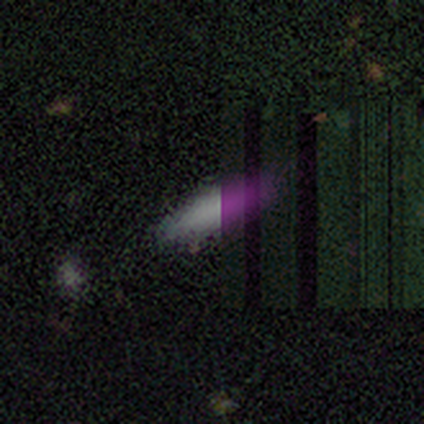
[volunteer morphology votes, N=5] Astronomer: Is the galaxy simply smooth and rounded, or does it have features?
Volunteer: smooth — 80%.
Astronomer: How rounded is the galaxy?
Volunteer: cigar-shaped — 75%.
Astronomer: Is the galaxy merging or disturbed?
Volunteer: none — 100%.